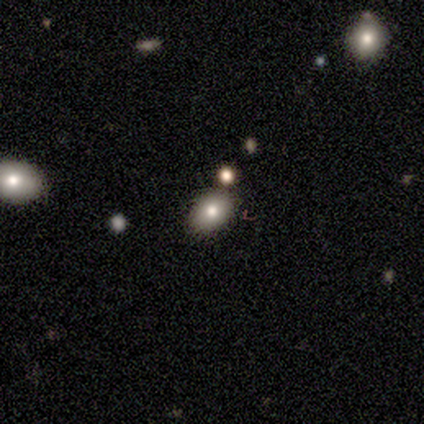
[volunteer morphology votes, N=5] Volunteers were most divided on "smooth or featured": smooth: 60%, star or artifact: 40%, featured or disk: 0%. More confident: how rounded — in between (67%); merging — none (67%).